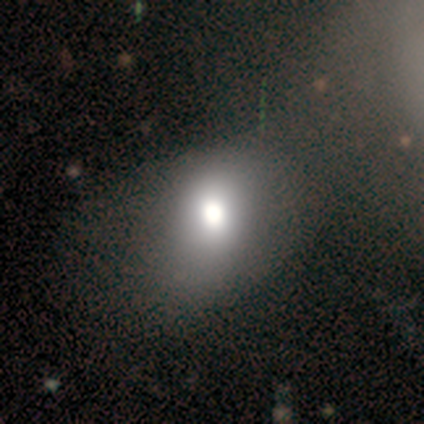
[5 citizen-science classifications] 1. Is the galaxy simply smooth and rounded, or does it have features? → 60% smooth, 40% featured or disk, 0% star or artifact.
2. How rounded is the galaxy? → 100% in between, 0% round, 0% cigar-shaped.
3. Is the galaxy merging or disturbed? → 40% none (tied), 40% major disturbance (tied), 20% minor disturbance, 0% merger.